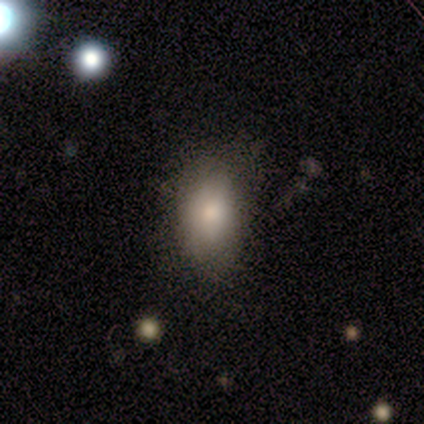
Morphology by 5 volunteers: This appears to be a smooth galaxy with no disk features (80%) that is round (50%, tied with in between). Merging: none (80%).